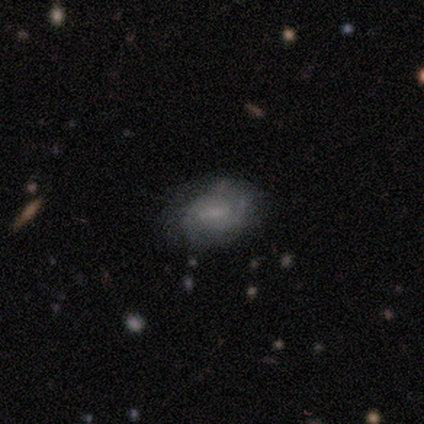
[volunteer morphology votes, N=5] A featured or disk galaxy (80%) with no bar (67%), 2 (50%, tied with 3) tight (50%, tied with medium) spiral arms (67%) and a small central bulge (67%).

Vote fractions:
- Smooth or featured? featured or disk: 80% / smooth: 20% / star or artifact: 0%
- Edge-on disk? no: 75% / yes: 25%
- Bar? no: 67% / weak: 33% / strong: 0%
- Spiral arms? yes: 67% / no: 33%
- Spiral winding? tight: 50% (tied) / medium: 50% (tied) / loose: 0%
- Spiral arm count? 2: 50% (tied) / 3: 50% (tied) / 1: 0% / 4: 0% / more than 4: 0% / can't tell: 0%
- Bulge size? small: 67% / moderate: 33% / dominant: 0% / large: 0% / none: 0%
- Merging? none: 80% / minor disturbance: 20% / major disturbance: 0% / merger: 0%